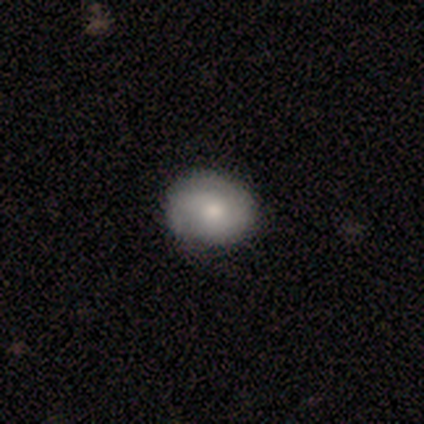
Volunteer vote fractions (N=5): Q: Smooth or featured?
A: smooth (60%); runner-up: featured or disk (20%)
Q: How rounded?
A: round (100%)
Q: Merging?
A: none (75%); runner-up: minor disturbance (25%)